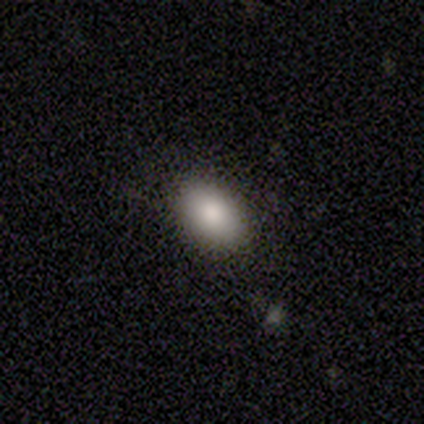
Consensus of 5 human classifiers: smooth_or_featured: smooth (p=0.80) [alt: star or artifact p=0.20]
how_rounded: in between (p=1.00)
merging: none (p=1.00)